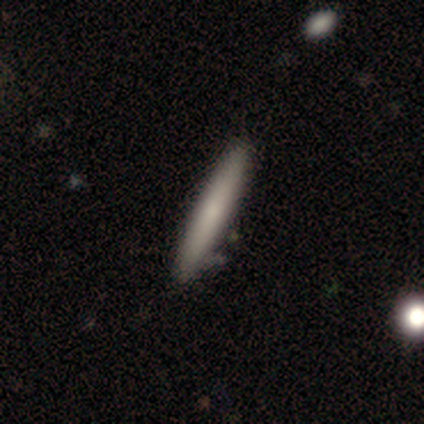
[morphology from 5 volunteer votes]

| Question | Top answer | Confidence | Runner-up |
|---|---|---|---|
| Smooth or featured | smooth | 60% | featured or disk (40%) |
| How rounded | cigar-shaped | 67% | in between (33%) |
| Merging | none | 80% | minor disturbance (20%) |